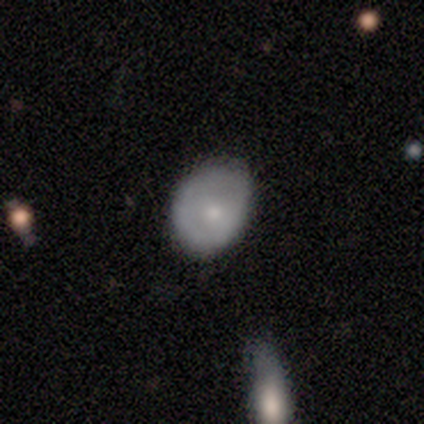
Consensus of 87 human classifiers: This appears to be a smooth galaxy with no disk features (78%) that is in between round and cigar-shaped (51%). Merging: none (52%).